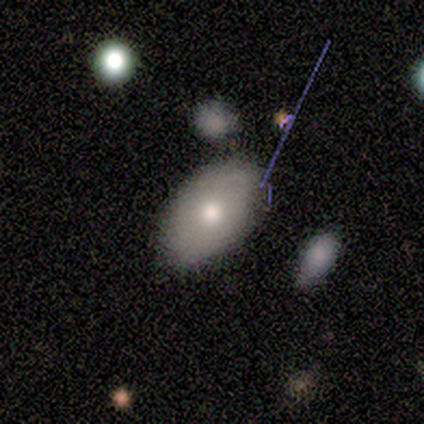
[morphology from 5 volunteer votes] type=smooth (100%); roundness=in between (80%); merging=none (100%).